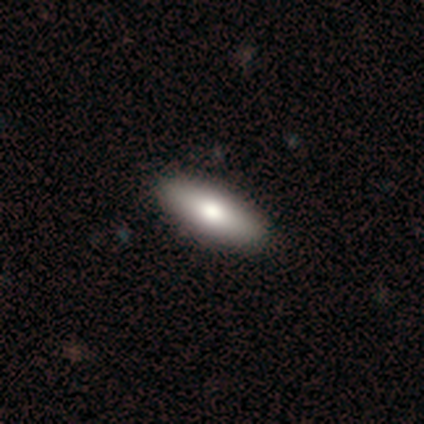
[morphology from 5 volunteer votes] Smooth or featured? smooth (100%)
How rounded? in between (60%)
Merging? none (100%)